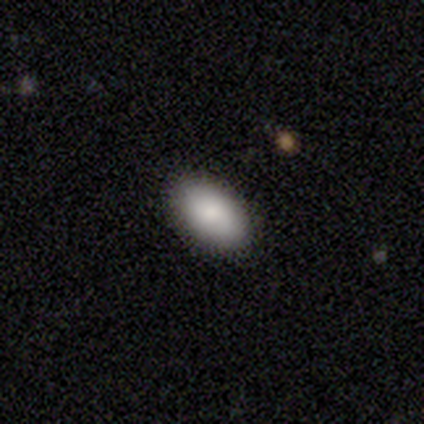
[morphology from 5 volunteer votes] type=smooth (100%); roundness=in between (100%); merging=none (100%).